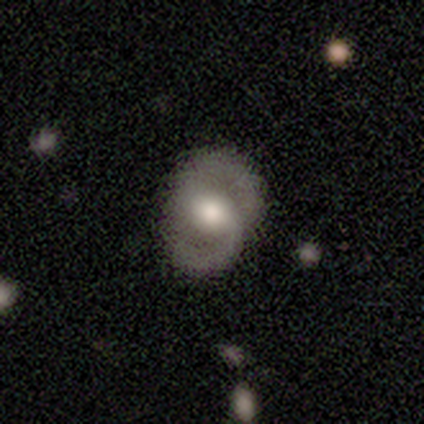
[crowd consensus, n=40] Smooth or featured?
  - featured or disk: 78% *
  - smooth: 22%
  - star or artifact: 0%
Edge-on disk?
  - no: 100% *
  - yes: 0%
Bar?
  - no: 45% *
  - weak: 42%
  - strong: 13%
Spiral arms?
  - yes: 74% *
  - no: 26%
Spiral winding?
  - medium: 61% *
  - tight: 22%
  - loose: 17%
Spiral arm count?
  - 2: 91% *
  - 1: 4%
  - can't tell: 4%
  - 3: 0%
  - 4: 0%
  - more than 4: 0%
Bulge size?
  - moderate: 61% *
  - large: 35%
  - dominant: 3%
  - small: 0%
  - none: 0%
Merging?
  - none: 82% *
  - minor disturbance: 15%
  - major disturbance: 2%
  - merger: 0%